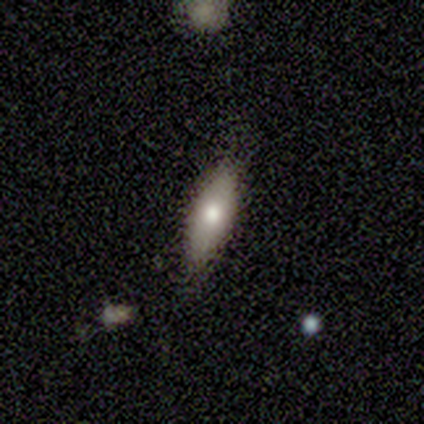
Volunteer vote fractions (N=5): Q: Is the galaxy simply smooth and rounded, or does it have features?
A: smooth — 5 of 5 (100%).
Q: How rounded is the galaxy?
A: in between — 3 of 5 (60%).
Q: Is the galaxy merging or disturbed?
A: none — 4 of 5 (80%).